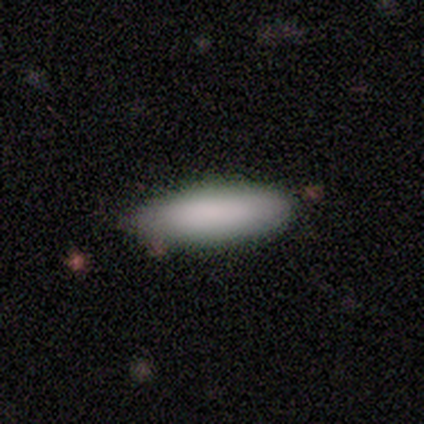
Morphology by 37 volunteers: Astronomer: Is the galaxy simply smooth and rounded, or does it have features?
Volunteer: smooth — 95%.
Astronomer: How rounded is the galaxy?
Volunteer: in between — 54% (runner-up: cigar-shaped, 46%).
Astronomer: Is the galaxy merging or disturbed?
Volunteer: none — 69%.